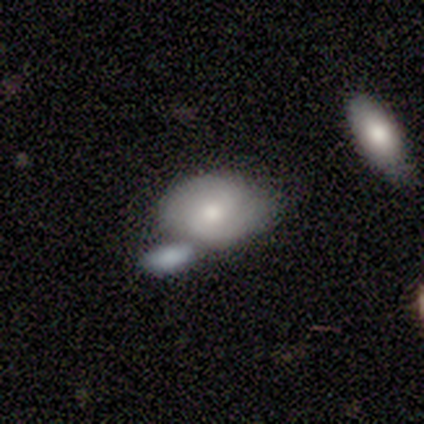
Volunteers were most divided on "bulge size": moderate: 50%, small: 45%, large: 5%, dominant: 0%, none: 0%. Remaining: edge-on disk — no (100%); spiral arm count — 2 (92%); bar — no (65%); spiral arms — yes (60%); merging — merger (56%); smooth or featured — featured or disk (53%); spiral winding — tight (42%).